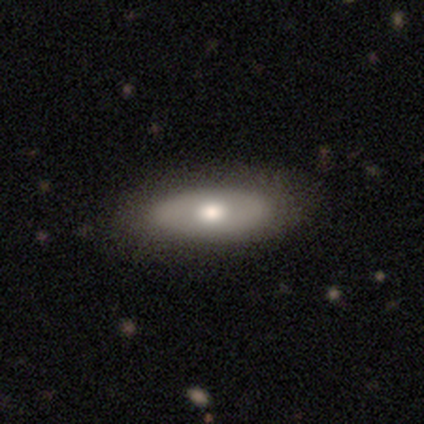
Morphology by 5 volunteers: Smooth or featured? 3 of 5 (60%) said featured or disk. Edge-on disk? 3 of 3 (100%) said no. Bar? 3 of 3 (100%) said no. Spiral arms? 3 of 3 (100%) said no. Bulge size? 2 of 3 (67%) said moderate. Merging? 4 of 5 (80%) said none.